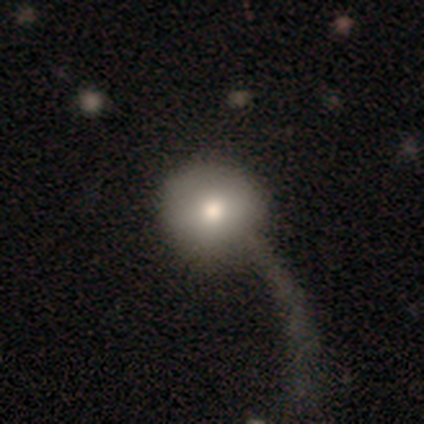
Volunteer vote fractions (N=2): This appears to be a smooth galaxy with no disk features (100%) that is round (100%). Merging: major disturbance (100%).